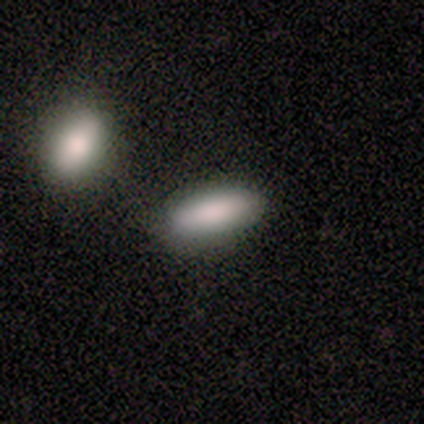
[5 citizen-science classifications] A smooth galaxy with no disk features (80%) that is in between round and cigar-shaped (75%). Merging: none (80%).